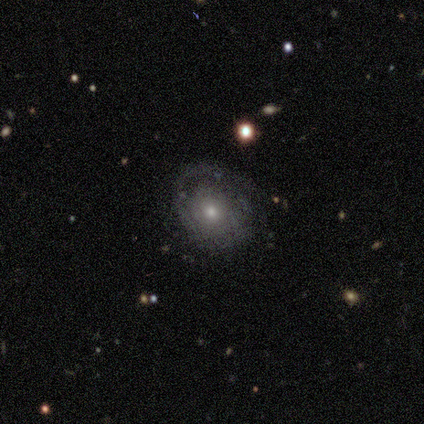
This appears to be a featured or disk galaxy (80%) with no bar (75%), 1 (33%, tied with 2 and can't tell) tight (67%) spiral arms (75%) and a small central bulge (75%). Merging: none (75%).